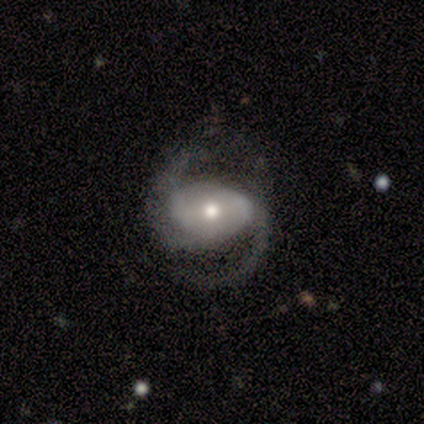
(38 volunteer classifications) smooth-or-featured: featured or disk: 84% | smooth: 8% | star or artifact: 8%
  disk-edge-on: no: 97% | yes: 3%
    bar: weak: 35% (tied) | no: 35% (tied) | strong: 29%
    has-spiral-arms: yes: 97% | no: 3%
      spiral-winding: medium: 60% | loose: 30% | tight: 10%
      spiral-arm-count: 2: 97% | can't tell: 3% | 1: 0% | 3: 0% | 4: 0% | more than 4: 0%
    bulge-size: moderate: 61% | small: 35% | large: 3% | dominant: 0% | none: 0%
  merging: none: 51% | minor disturbance: 26% | major disturbance: 23% | merger: 0%